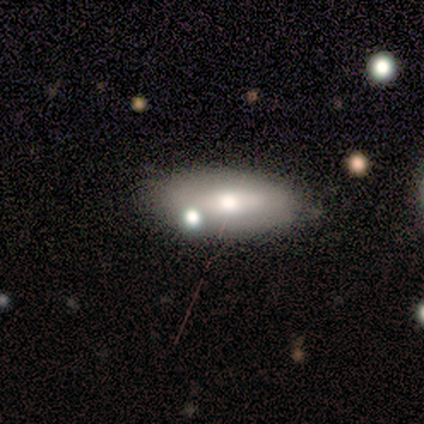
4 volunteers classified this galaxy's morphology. Q: Smooth or featured?
A: smooth (75%); runner-up: featured or disk (25%)
Q: How rounded?
A: in between (67%); runner-up: cigar-shaped (33%)
Q: Merging?
A: none (50%); runner-up: minor disturbance (25%)